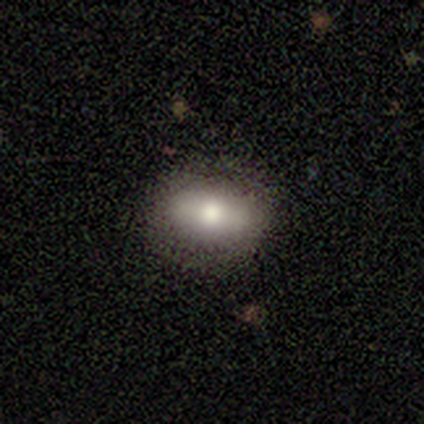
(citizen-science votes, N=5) smooth-or-featured: smooth: 100% | featured or disk: 0% | star or artifact: 0%
  how-rounded: in between: 100% | round: 0% | cigar-shaped: 0%
  merging: none: 60% | minor disturbance: 40% | major disturbance: 0% | merger: 0%